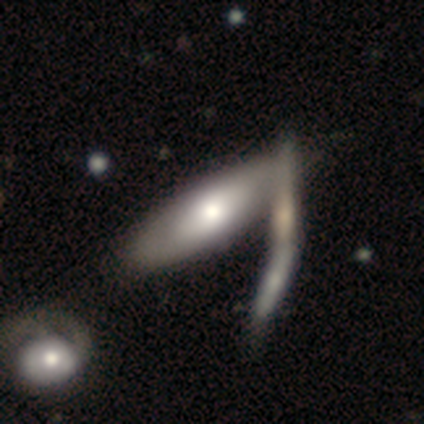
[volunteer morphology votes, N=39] Smooth or featured?
  - smooth: 51% *
  - featured or disk: 46%
  - star or artifact: 3%
How rounded?
  - in between: 65% *
  - cigar-shaped: 35%
  - round: 0%
Merging?
  - merger: 53% *
  - none: 13%
  - minor disturbance: 5%
  - major disturbance: 0%